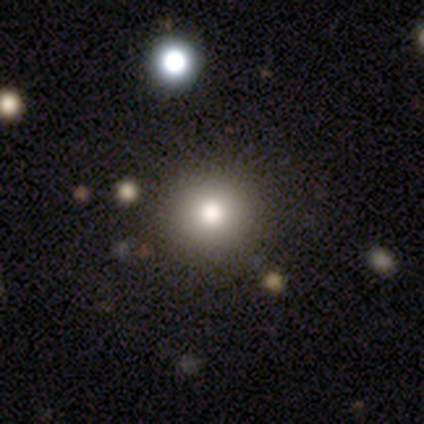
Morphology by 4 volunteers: Smooth or featured? smooth (50%)
How rounded? round (100%)
Merging? none (67%)